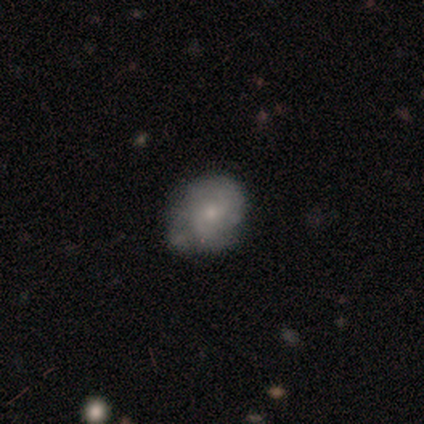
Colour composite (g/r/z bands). It shows a smooth galaxy with no disk features (56%) that is round (59%). Merging: none (40%).